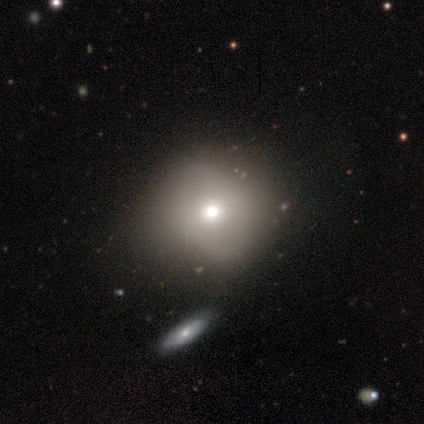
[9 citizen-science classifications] Smooth or featured: smooth — 67% (featured or disk — 33%)
How rounded: round — 83% (in between — 17%)
Merging: none — 78% (minor disturbance — 11%)